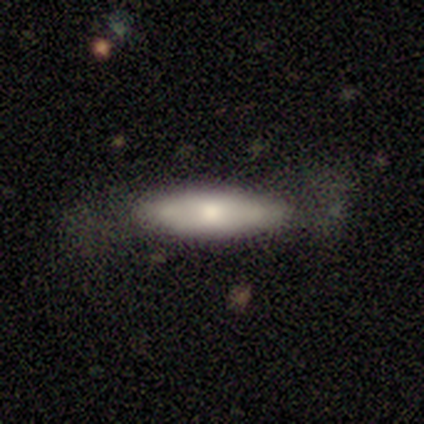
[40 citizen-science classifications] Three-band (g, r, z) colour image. It shows a smooth galaxy with no disk features (65%) that is in between round and cigar-shaped (50%). Merging: none (71%).